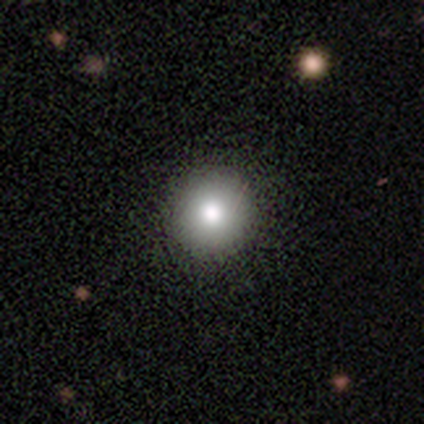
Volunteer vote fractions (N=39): Q: Smooth or featured?
A: smooth (82%); runner-up: featured or disk (10%)
Q: How rounded?
A: round (94%); runner-up: in between (6%)
Q: Merging?
A: none (86%); runner-up: minor disturbance (8%)